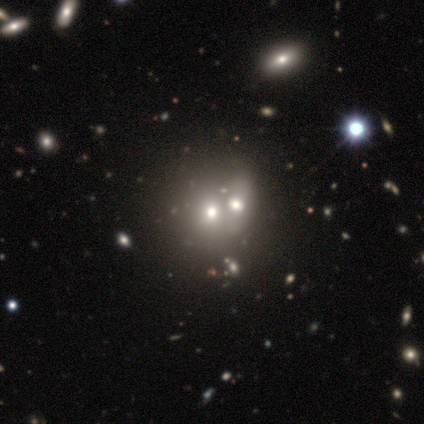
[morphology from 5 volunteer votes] This is likely a smooth galaxy (60%). How rounded: likely round (67%). Merging: likely merger (60%).